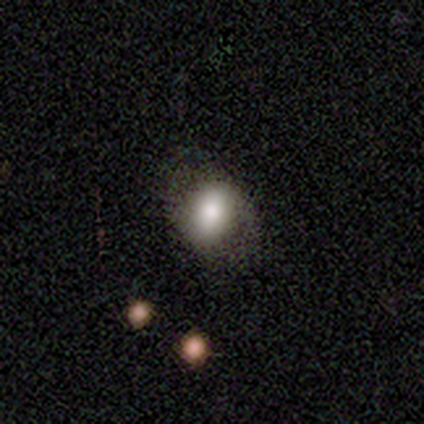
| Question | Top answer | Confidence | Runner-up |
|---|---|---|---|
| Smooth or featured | smooth | 100% | — |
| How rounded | in between | 80% | round (20%) |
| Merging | none | 80% | minor disturbance (20%) |